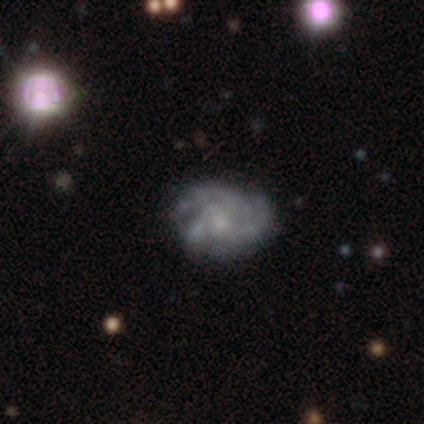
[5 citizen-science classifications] Smooth or featured? 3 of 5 (60%) said smooth. How rounded? 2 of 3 (67%) said in between. Merging? 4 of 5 (80%) said none.